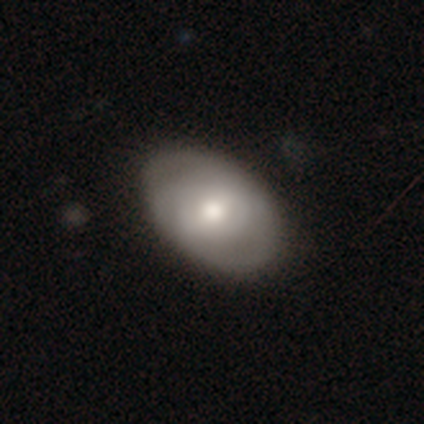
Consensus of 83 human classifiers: Smooth or featured? 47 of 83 (57%) said smooth. How rounded? 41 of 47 (87%) said in between. Merging? 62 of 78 (79%) said none.